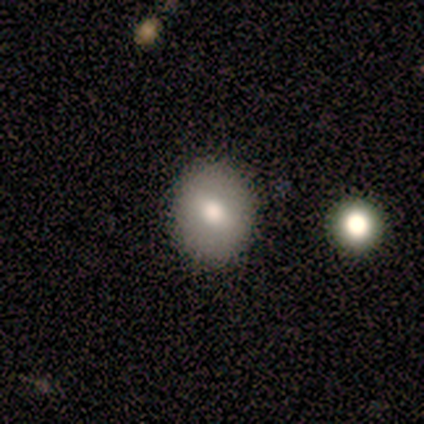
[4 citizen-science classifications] Smooth or featured: smooth — 75% (featured or disk — 25%)
How rounded: round — 67% (in between — 33%)
Merging: none — 50% (tied with minor disturbance — 50%)